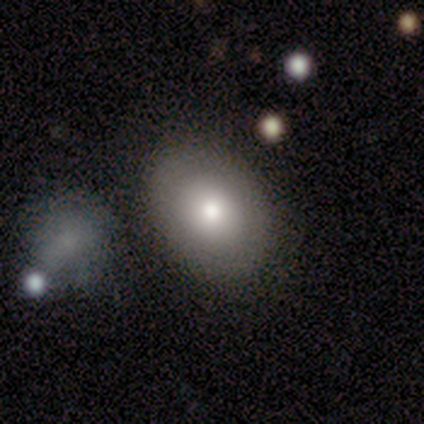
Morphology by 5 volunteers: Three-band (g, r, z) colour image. It shows a smooth galaxy with no disk features (40%, tied with featured or disk) that is in between round and cigar-shaped (100%). Merging: none (50%).